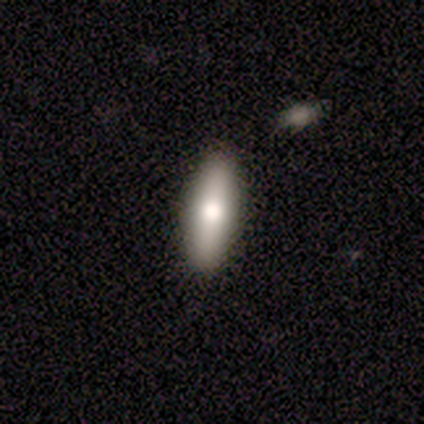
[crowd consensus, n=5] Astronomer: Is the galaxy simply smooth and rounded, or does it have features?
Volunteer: smooth — 40%, tied with featured or disk at 40%.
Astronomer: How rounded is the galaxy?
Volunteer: cigar-shaped — 100%.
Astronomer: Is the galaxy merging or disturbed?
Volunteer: none — 75%.